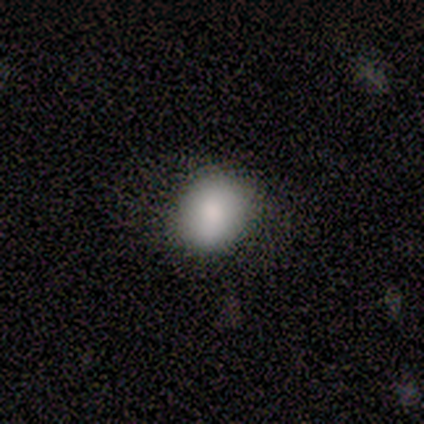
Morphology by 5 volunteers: Q: Smooth or featured?
A: smooth (80%); runner-up: featured or disk (20%)
Q: How rounded?
A: round (75%); runner-up: in between (25%)
Q: Merging?
A: none (100%)